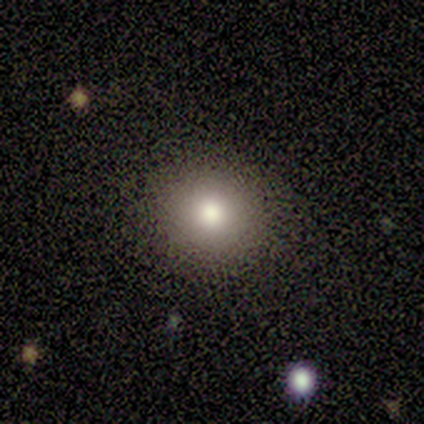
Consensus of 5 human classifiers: A smooth galaxy with no disk features (100%) that is round (100%).

Vote fractions:
- Smooth or featured? smooth: 100% / featured or disk: 0% / star or artifact: 0%
- How rounded? round: 100% / in between: 0% / cigar-shaped: 0%
- Merging? none: 80% / minor disturbance: 20% / major disturbance: 0% / merger: 0%